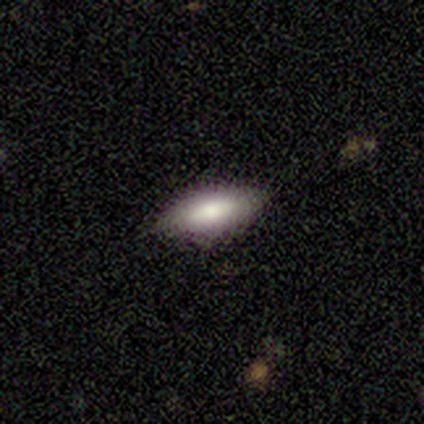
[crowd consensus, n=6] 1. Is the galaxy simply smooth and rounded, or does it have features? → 83% smooth, 17% featured or disk, 0% star or artifact.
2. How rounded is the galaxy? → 80% in between, 20% cigar-shaped, 0% round.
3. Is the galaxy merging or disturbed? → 83% none, 17% minor disturbance, 0% major disturbance, 0% merger.